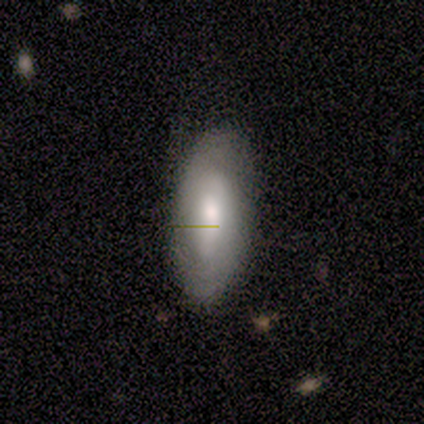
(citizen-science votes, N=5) featured or disk 80%, smooth 20%, star or artifact 0%. Down the decision tree: edge-on disk — no (100%); bar — no (75%); spiral arms — no (75%); bulge size — moderate (50%); merging — none (80%).